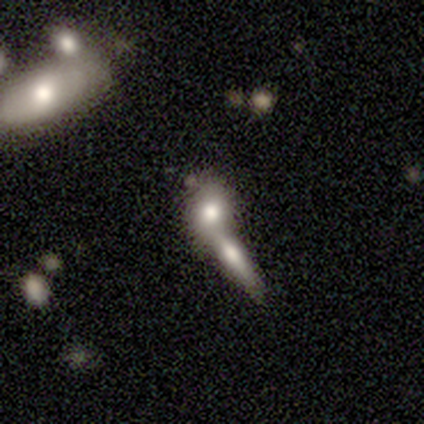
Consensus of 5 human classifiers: Volunteers were most divided on "how rounded" (3-way tie): round: 33%, in between: 33%, cigar-shaped: 33%. More confident: smooth or featured — smooth (60%); merging — merger (50%).